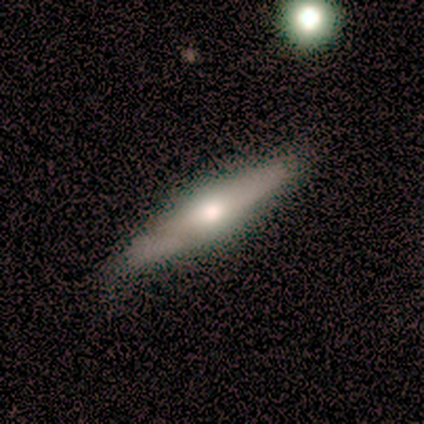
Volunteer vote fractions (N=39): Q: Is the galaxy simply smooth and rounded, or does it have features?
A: featured or disk — 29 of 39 (74%).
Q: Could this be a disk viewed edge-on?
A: yes — 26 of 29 (90%).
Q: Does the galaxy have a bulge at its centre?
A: rounded — 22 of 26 (85%).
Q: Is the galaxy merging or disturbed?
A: none — 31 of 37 (84%).